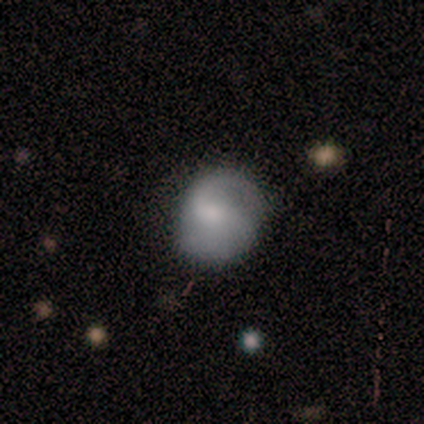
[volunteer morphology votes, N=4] Smooth or featured: featured or disk — 75% (smooth — 25%)
Edge-on disk: no — 100%
Bar: no — 100%
Spiral arms: yes — 100%
Spiral winding: tight — 67% (loose — 33%)
Spiral arm count: 2 — 67% (can't tell — 33%)
Bulge size: moderate — 67% (none — 33%)
Merging: none — 75% (major disturbance — 25%)